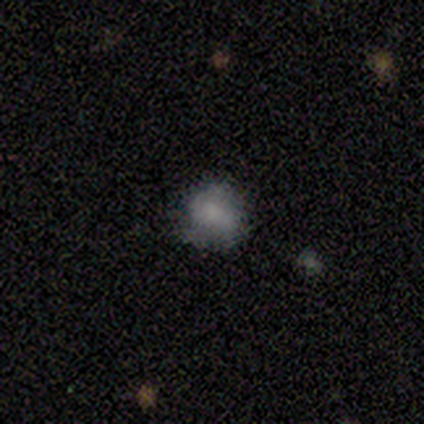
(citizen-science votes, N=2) Smooth or featured: smooth — 50% (tied with featured or disk — 50%)
How rounded: round — 100%
Merging: none — 50% (tied with major disturbance — 50%)